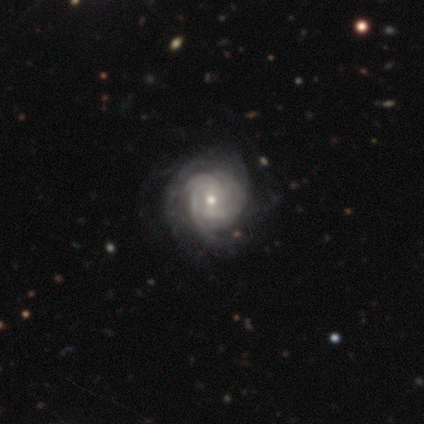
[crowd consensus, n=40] Smooth or featured: featured or disk — 90% (smooth — 8%)
Edge-on disk: no — 97% (yes — 3%)
Bar: weak — 51% (no — 46%)
Spiral arms: yes — 97% (no — 3%)
Spiral winding: tight — 85% (medium — 12%)
Spiral arm count: can't tell — 47% (3 — 21%)
Bulge size: small — 51% (moderate — 43%)
Merging: none — 38% (minor disturbance — 21%)